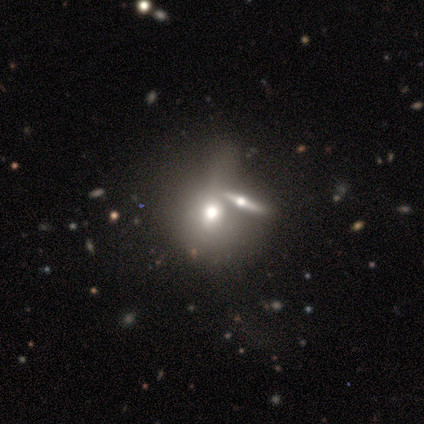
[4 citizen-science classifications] smooth 50% (tied), featured or disk 50% (tied), star or artifact 0%. Down the decision tree: how rounded — round (100%); merging — merger (75%).